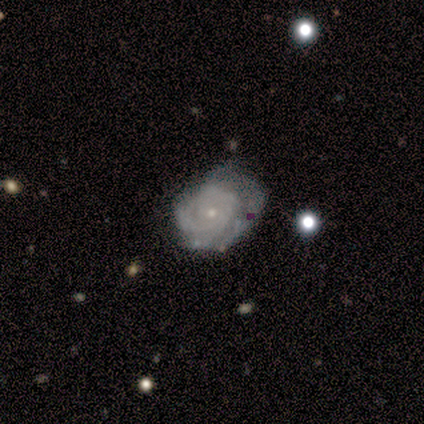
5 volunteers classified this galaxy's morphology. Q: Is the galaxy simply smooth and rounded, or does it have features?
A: featured or disk — 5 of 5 (100%).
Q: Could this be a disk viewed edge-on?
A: no — 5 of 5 (100%).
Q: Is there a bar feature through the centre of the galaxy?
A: no — 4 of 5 (80%).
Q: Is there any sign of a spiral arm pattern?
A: yes — 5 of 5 (100%).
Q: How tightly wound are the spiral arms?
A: tight — 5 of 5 (100%).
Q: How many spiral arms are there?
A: can't tell — 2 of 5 (40%).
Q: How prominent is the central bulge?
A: small — 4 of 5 (80%).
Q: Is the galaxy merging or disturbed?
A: minor disturbance — 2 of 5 (40%, tied with major disturbance).